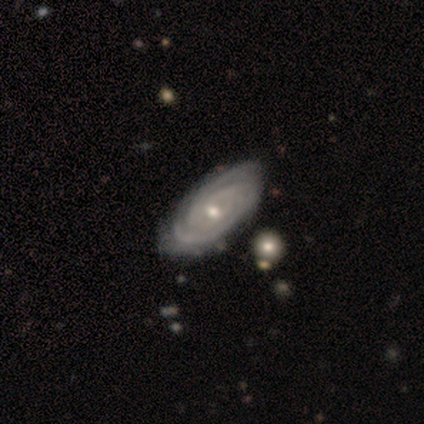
Overall: featured or disk (100%). Edge-on disk: no (100%). Bar: no (80%). Spiral arms: yes (100%). Spiral arm count: 2 (40%, tied with can't tell). Spiral winding: tight (100%). Bulge size: small (60%; moderate 40%). Merging: none (100%).